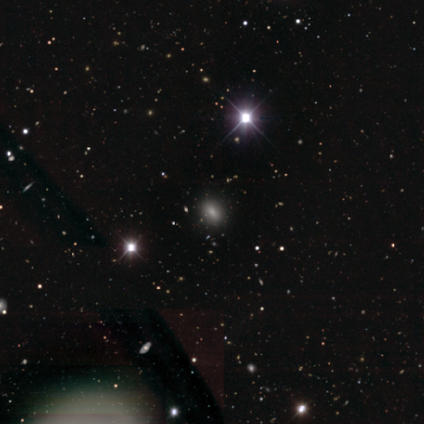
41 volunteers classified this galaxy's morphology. Smooth or featured? star or artifact (54%)